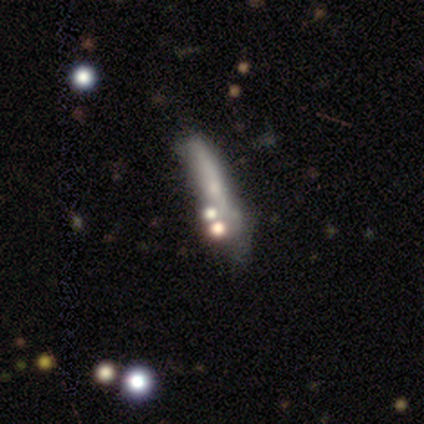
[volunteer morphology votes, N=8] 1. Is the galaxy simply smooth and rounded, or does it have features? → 88% smooth, 12% featured or disk, 0% star or artifact.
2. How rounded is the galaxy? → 100% cigar-shaped, 0% round, 0% in between.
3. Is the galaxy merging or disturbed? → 50% none, 25% minor disturbance, 25% merger, 0% major disturbance.